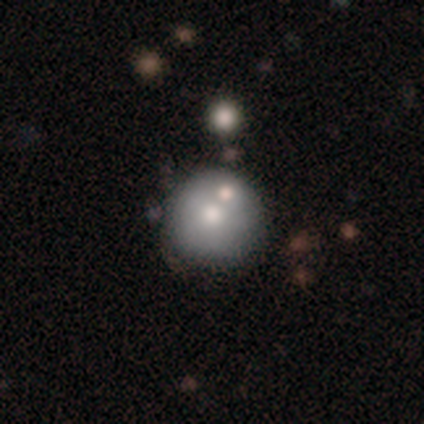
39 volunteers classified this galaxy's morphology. A smooth galaxy with no disk features (62%) that is round (96%).

Vote fractions:
- Smooth or featured? smooth: 62% / featured or disk: 23% / star or artifact: 15%
- How rounded? round: 96% / in between: 4% / cigar-shaped: 0%
- Merging? none: 76% / merger: 15% / minor disturbance: 9% / major disturbance: 0%